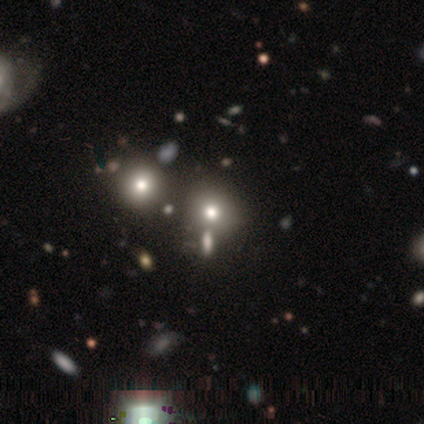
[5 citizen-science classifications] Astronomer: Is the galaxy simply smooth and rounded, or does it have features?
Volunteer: smooth — 60%.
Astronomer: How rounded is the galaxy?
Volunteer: round — 67%.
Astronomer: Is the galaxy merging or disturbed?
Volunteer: merger — 50%.